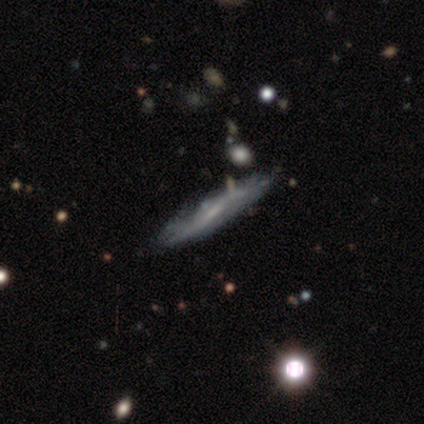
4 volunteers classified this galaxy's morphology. smooth-or-featured: featured or disk: 75% | smooth: 25% | star or artifact: 0%
  disk-edge-on: yes: 67% | no: 33%
    edge-on-bulge: rounded: 100% | boxy: 0% | none: 0%
  merging: minor disturbance: 50% | none: 25% | merger: 25% | major disturbance: 0%